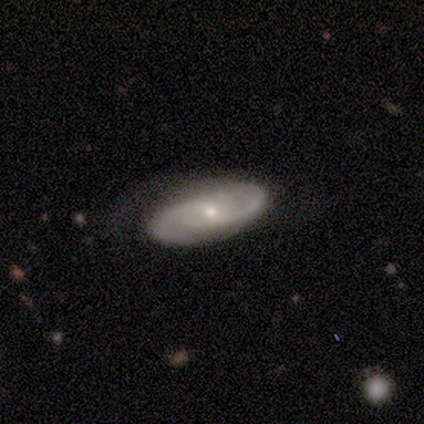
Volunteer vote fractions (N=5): featured or disk 60%, smooth 40%, star or artifact 0%. Down the decision tree: edge-on disk — no (100%); bar — no (67%); spiral arms — yes (100%); spiral arm count — 1 (33%, tied with 2 and can't tell); spiral winding — loose (67%); bulge size — small (100%); merging — none (80%).